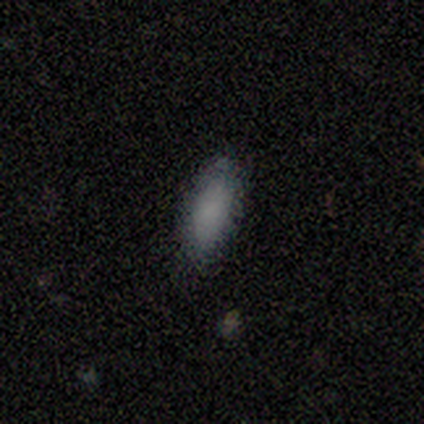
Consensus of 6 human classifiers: Smooth or featured? 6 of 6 (100%) said smooth. How rounded? 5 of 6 (83%) said in between. Merging? 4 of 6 (67%) said none.